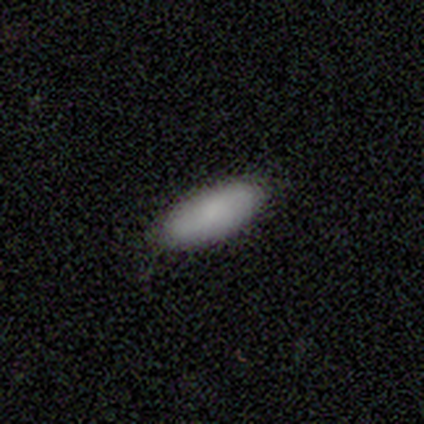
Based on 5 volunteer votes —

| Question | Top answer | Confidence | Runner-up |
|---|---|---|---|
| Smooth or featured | smooth | 100% | — |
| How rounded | cigar-shaped | 60% | in between (40%) |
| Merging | none | 80% | minor disturbance (20%) |